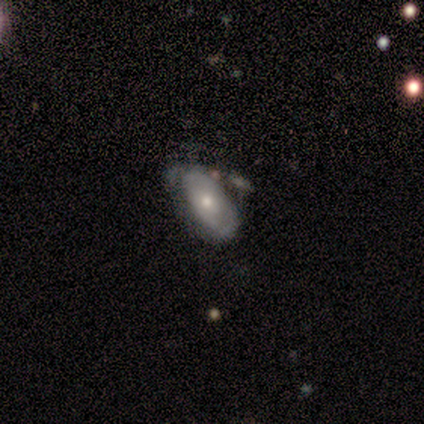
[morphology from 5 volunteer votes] A smooth galaxy with no disk features (60%) that is in between round and cigar-shaped (100%).

Vote fractions:
- Smooth or featured? smooth: 60% / featured or disk: 40% / star or artifact: 0%
- How rounded? in between: 100% / round: 0% / cigar-shaped: 0%
- Merging? none: 60% / minor disturbance: 40% / major disturbance: 0% / merger: 0%